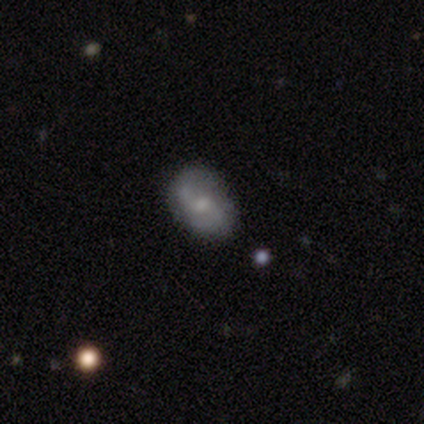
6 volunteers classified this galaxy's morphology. Overall: smooth (67%; featured or disk 33%). How rounded: in between (100%). Merging: none (83%).